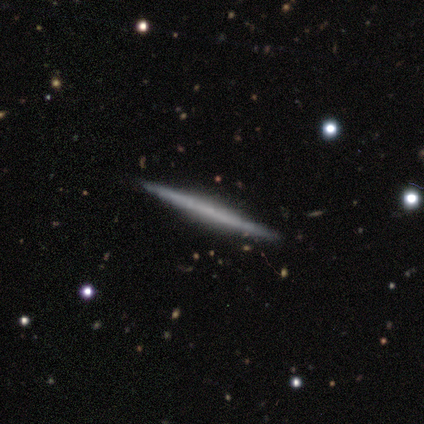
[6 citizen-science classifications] Smooth or featured?
  - featured or disk: 83% *
  - smooth: 17%
  - star or artifact: 0%
Edge-on disk?
  - yes: 100% *
  - no: 0%
Edge-on bulge?
  - none: 100% *
  - boxy: 0%
  - rounded: 0%
Merging?
  - none: 83% *
  - minor disturbance: 17%
  - major disturbance: 0%
  - merger: 0%